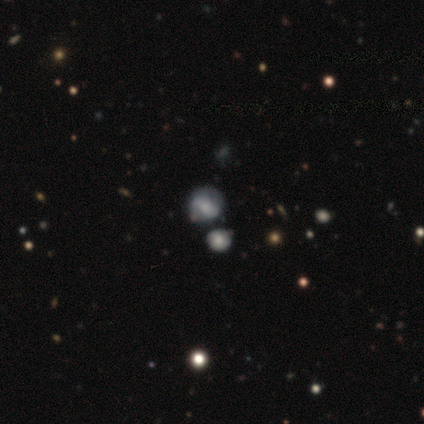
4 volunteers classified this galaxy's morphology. Smooth or featured?
  - featured or disk: 50% *
  - smooth: 25%
  - star or artifact: 25%
Edge-on disk?
  - no: 100% *
  - yes: 0%
Bar?
  - strong: 50% * (tied)
  - weak: 50% * (tied)
  - no: 0%
Spiral arms?
  - yes: 100% *
  - no: 0%
Spiral winding?
  - tight: 50% * (tied)
  - loose: 50% * (tied)
  - medium: 0%
Spiral arm count?
  - can't tell: 100% *
  - 1: 0%
  - 2: 0%
  - 3: 0%
  - 4: 0%
  - more than 4: 0%
Bulge size?
  - none: 100% *
  - dominant: 0%
  - large: 0%
  - moderate: 0%
  - small: 0%
Merging?
  - none: 33% * (tied)
  - major disturbance: 33% * (tied)
  - merger: 33% * (tied)
  - minor disturbance: 0%